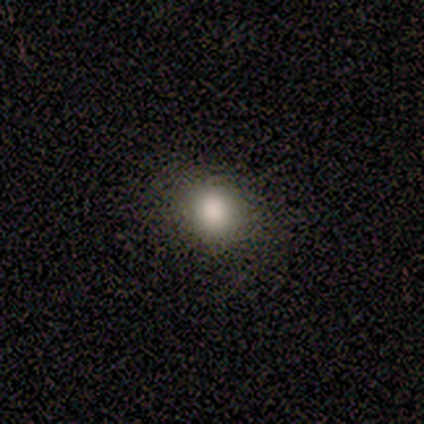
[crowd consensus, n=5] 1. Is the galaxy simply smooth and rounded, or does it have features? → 80% smooth, 20% featured or disk, 0% star or artifact.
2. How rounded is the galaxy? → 75% round, 25% in between, 0% cigar-shaped.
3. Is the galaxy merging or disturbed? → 100% none, 0% minor disturbance, 0% major disturbance, 0% merger.